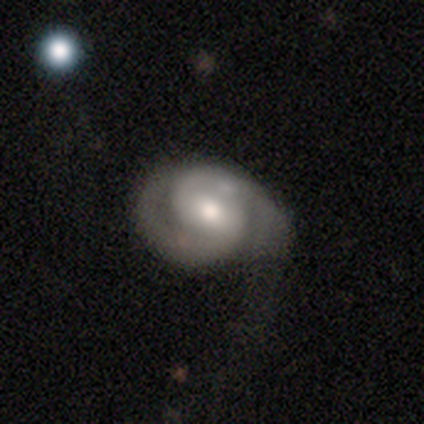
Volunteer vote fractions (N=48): Morphology: type=featured or disk (90%); edge-on=no (91%); bar=weak (54%); spiral arms=yes (100%); winding=medium (51%); arm count=2 (85%); bulge=moderate (59%); merging=none (57%).